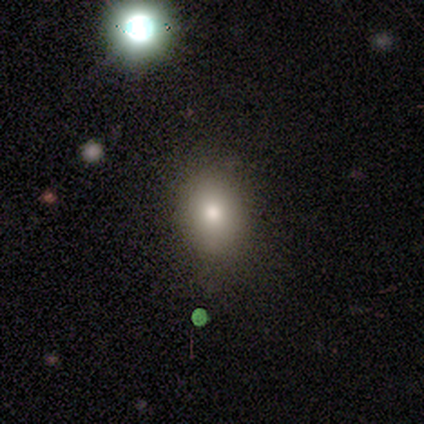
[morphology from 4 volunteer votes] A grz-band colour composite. It shows a smooth galaxy with no disk features (75%) that is in between round and cigar-shaped (100%). Merging: none (67%).